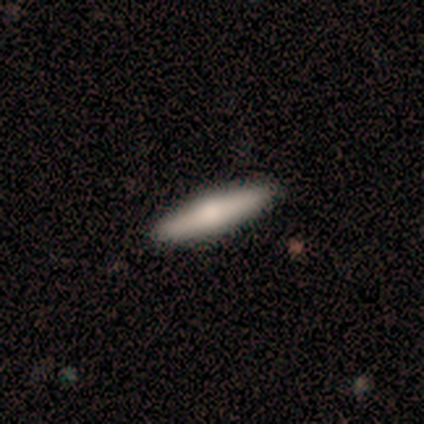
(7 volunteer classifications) Smooth or featured?
  - smooth: 71% *
  - featured or disk: 29%
  - star or artifact: 0%
How rounded?
  - cigar-shaped: 60% *
  - in between: 40%
  - round: 0%
Merging?
  - none: 86% *
  - major disturbance: 14%
  - minor disturbance: 0%
  - merger: 0%